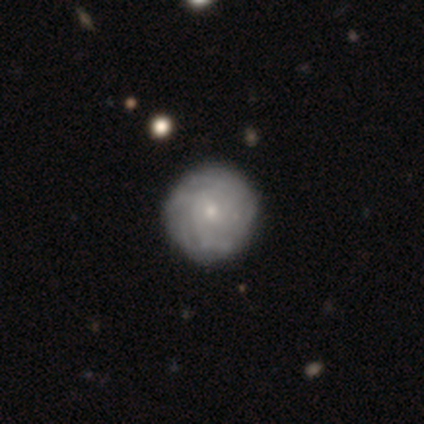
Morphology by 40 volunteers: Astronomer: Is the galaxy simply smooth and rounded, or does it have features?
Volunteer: featured or disk — 80%.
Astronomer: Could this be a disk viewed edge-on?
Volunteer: no — 100%.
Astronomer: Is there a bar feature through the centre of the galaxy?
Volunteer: no — 66%.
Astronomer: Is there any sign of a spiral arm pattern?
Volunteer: yes — 75%.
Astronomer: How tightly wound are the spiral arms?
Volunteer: tight — 71%.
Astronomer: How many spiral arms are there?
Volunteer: can't tell — 54% (runner-up: more than 4, 33%).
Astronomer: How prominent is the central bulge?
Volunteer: small — 56% (runner-up: moderate, 38%).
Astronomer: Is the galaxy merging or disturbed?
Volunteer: none — 55%.